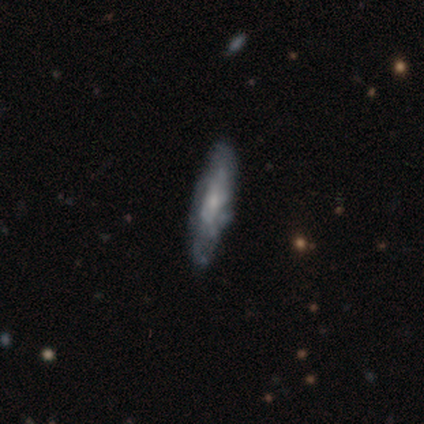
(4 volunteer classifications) Smooth or featured? featured or disk (100%)
Edge-on disk? no (100%)
Bar? no (75%)
Spiral arms? yes (75%)
Spiral winding? tight (100%)
Spiral arm count? can't tell (100%)
Bulge size? small (75%)
Merging? none (100%)